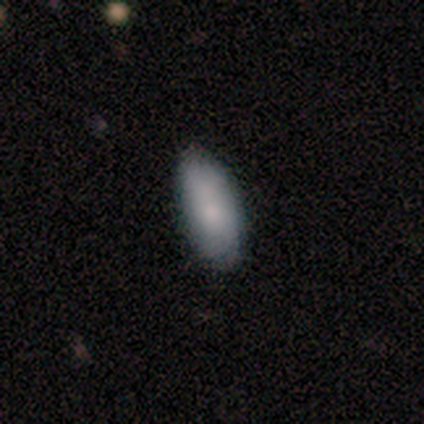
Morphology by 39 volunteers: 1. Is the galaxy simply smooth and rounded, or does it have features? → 79% smooth, 10% featured or disk, 10% star or artifact.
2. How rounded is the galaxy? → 87% in between, 13% cigar-shaped, 0% round.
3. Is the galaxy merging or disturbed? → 83% none, 14% minor disturbance, 3% merger, 0% major disturbance.